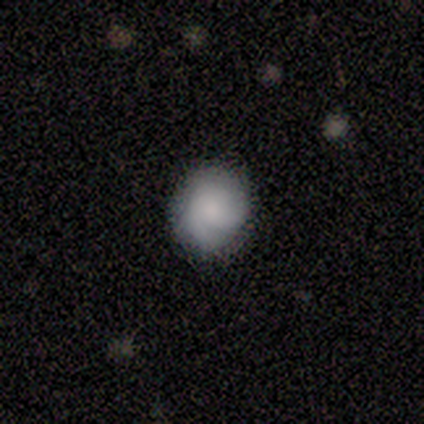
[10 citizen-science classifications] smooth-or-featured: smooth: 50% (tied) | featured or disk: 50% (tied) | star or artifact: 0%
  how-rounded: round: 100% | in between: 0% | cigar-shaped: 0%
  merging: none: 100% | minor disturbance: 0% | major disturbance: 0% | merger: 0%